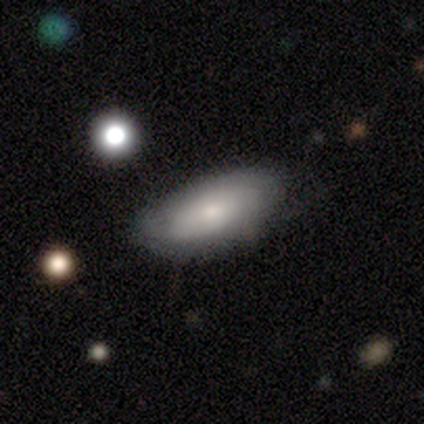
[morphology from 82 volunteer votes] Smooth or featured: smooth — 63% (featured or disk — 32%)
How rounded: in between — 94% (cigar-shaped — 6%)
Merging: none — 74% (minor disturbance — 19%)